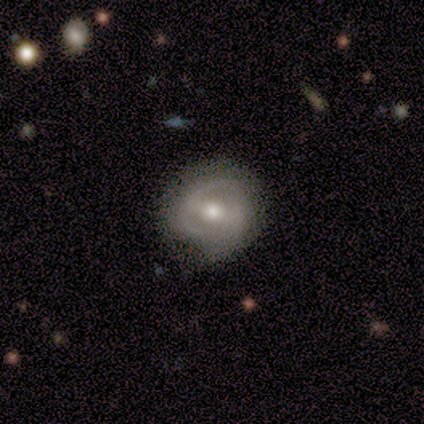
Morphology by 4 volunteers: Overall: smooth (50%, tied with featured or disk). How rounded: round (100%). Merging: none (75%).